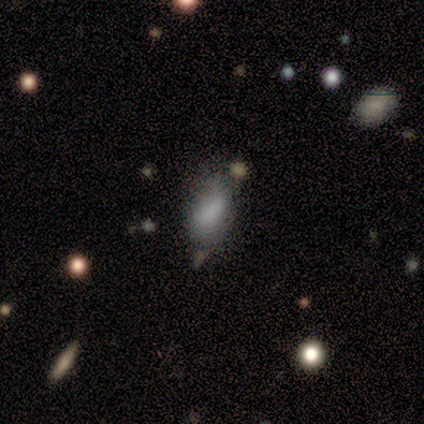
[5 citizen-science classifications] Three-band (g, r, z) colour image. It shows a smooth galaxy with no disk features (100%) that is in between round and cigar-shaped (80%). Merging: none (100%).